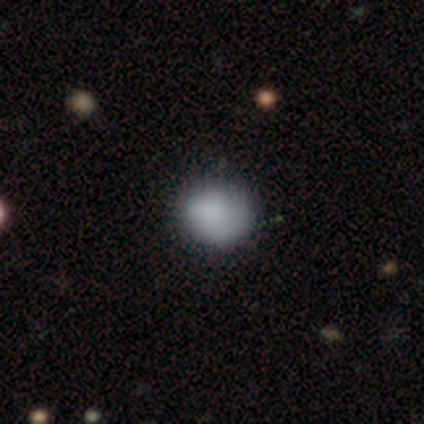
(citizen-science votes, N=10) smooth 100%, featured or disk 0%, star or artifact 0%. Down the decision tree: how rounded — round (70%); merging — none (90%).